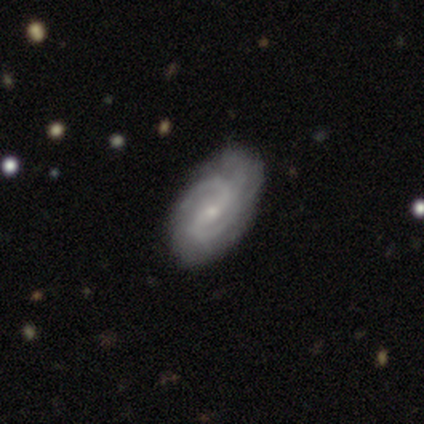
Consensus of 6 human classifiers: featured or disk 100%, smooth 0%, star or artifact 0%. Down the decision tree: edge-on disk — no (100%); bar — weak (67%); spiral arms — yes (100%); spiral arm count — 2 (83%); spiral winding — medium (67%); bulge size — small (67%); merging — none (67%).